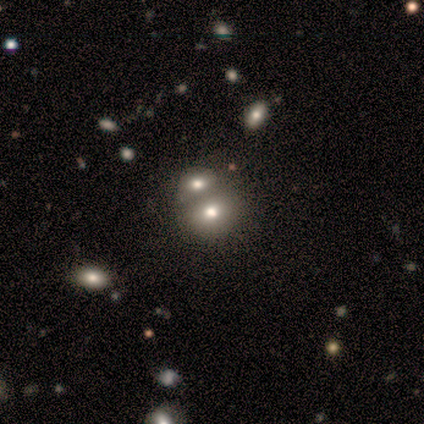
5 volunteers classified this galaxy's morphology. Volunteers were most divided on "smooth or featured": smooth: 60%, featured or disk: 20%, star or artifact: 20%. More confident: how rounded — round (100%); merging — merger (75%).